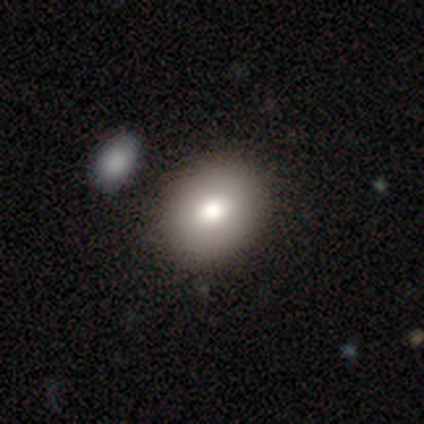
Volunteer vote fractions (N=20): This appears to be a smooth galaxy with no disk features (85%) that is in between round and cigar-shaped (65%). Merging: none (75%).